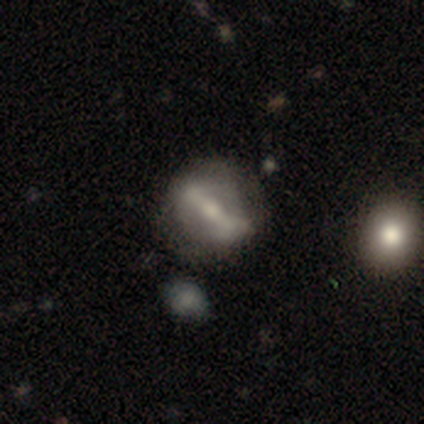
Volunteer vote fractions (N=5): smooth-or-featured: featured or disk: 60% | smooth: 40% | star or artifact: 0%
  disk-edge-on: no: 67% | yes: 33%
    bar: strong: 100% | weak: 0% | no: 0%
    has-spiral-arms: yes: 50% (tied) | no: 50% (tied)
      spiral-winding: medium: 100% | tight: 0% | loose: 0%
      spiral-arm-count: 2: 100% | 1: 0% | 3: 0% | 4: 0% | more than 4: 0% | can't tell: 0%
    bulge-size: moderate: 50% (tied) | small: 50% (tied) | dominant: 0% | large: 0% | none: 0%
  merging: none: 60% | minor disturbance: 20% | major disturbance: 20% | merger: 0%